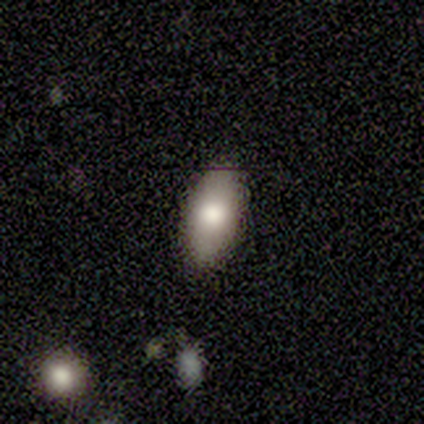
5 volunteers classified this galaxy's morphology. This appears to be a smooth galaxy with no disk features (80%) that is in between round and cigar-shaped (100%). Merging: none (100%).